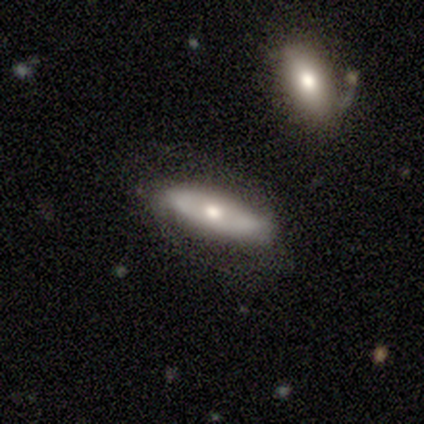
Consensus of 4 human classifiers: Smooth or featured? featured or disk (50%)
Edge-on disk? no (100%)
Bar? no (100%)
Spiral arms? yes (50%, tied with no)
Spiral winding? medium (100%)
Spiral arm count? 2 (100%)
Bulge size? large (50%, tied with moderate)
Merging? minor disturbance (67%)